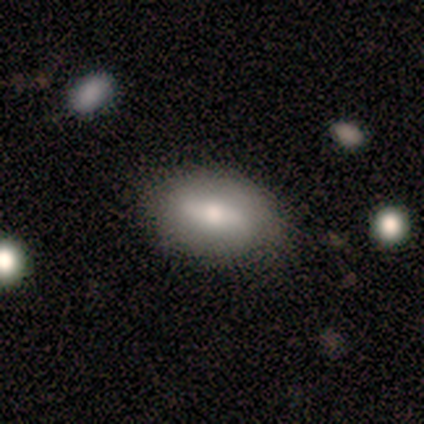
Smooth or featured: smooth — 56% (featured or disk — 44%)
How rounded: in between — 80% (cigar-shaped — 20%)
Merging: none — 78% (minor disturbance — 22%)